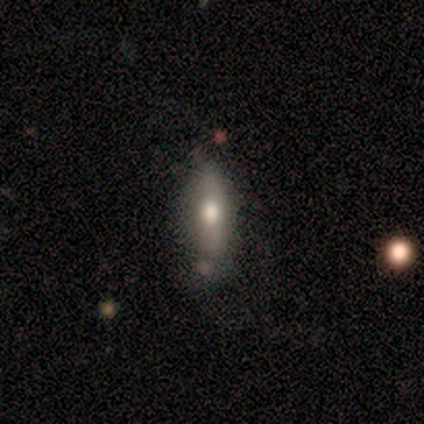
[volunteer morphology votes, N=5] Smooth or featured?
  - smooth: 60% *
  - featured or disk: 40%
  - star or artifact: 0%
How rounded?
  - in between: 67% *
  - cigar-shaped: 33%
  - round: 0%
Merging?
  - none: 60% *
  - minor disturbance: 40%
  - major disturbance: 0%
  - merger: 0%